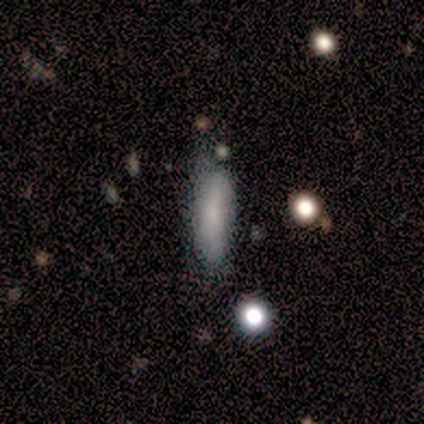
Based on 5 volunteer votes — This appears to be a smooth galaxy with no disk features (100%) that is cigar-shaped (60%). Merging: none (100%).